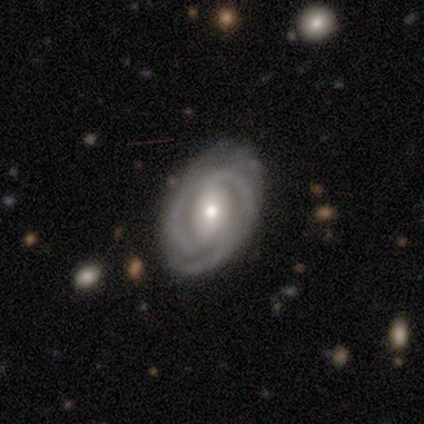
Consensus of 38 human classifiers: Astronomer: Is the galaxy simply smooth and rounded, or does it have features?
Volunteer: featured or disk — 97%.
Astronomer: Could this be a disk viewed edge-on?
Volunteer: no — 97%.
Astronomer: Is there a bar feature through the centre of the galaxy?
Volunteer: strong — 47% (runner-up: no, 31%).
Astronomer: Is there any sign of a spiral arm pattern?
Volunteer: yes — 100%.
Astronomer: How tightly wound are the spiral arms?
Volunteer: tight — 61%.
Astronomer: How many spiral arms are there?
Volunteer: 3 — 50% (runner-up: 2, 44%).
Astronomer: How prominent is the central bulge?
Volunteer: moderate — 50% (runner-up: small, 47%).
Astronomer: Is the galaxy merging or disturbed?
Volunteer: none — 92%.